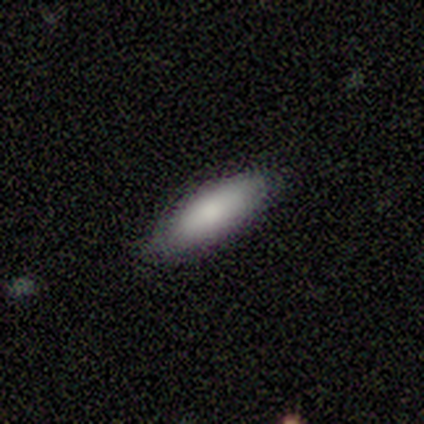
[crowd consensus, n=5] Q: Smooth or featured?
A: featured or disk (60%); runner-up: smooth (40%)
Q: Edge-on disk?
A: no (67%); runner-up: yes (33%)
Q: Bar?
A: no (100%)
Q: Spiral arms?
A: yes (50%); tied with: no (50%)
Q: Spiral winding?
A: tight (100%)
Q: Spiral arm count?
A: can't tell (100%)
Q: Bulge size?
A: moderate (100%)
Q: Merging?
A: none (100%)